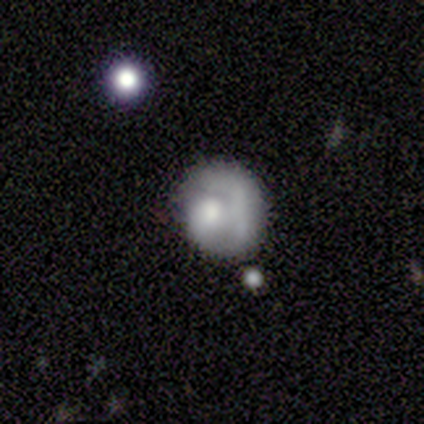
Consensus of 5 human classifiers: Smooth or featured? smooth (80%)
How rounded? round (75%)
Merging? none (75%)